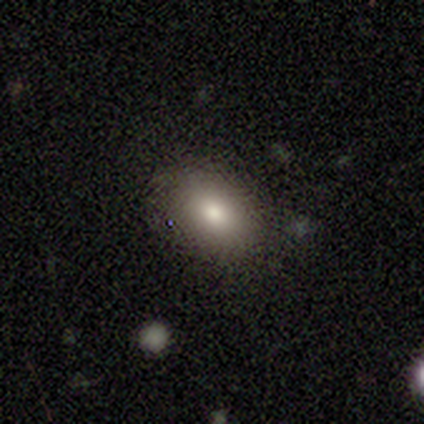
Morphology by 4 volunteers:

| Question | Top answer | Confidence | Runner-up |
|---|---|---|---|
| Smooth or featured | star or artifact | 50% | smooth (25%) |